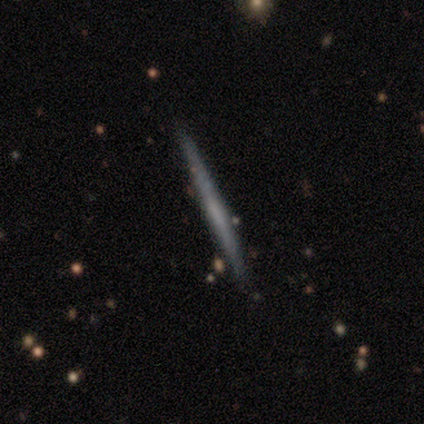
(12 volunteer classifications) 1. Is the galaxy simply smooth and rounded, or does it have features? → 67% featured or disk, 25% smooth, 8% star or artifact.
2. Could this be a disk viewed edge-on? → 100% yes, 0% no.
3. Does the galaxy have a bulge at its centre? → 50% none, 38% boxy, 12% rounded.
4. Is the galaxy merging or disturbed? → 82% none, 9% minor disturbance, 9% major disturbance, 0% merger.